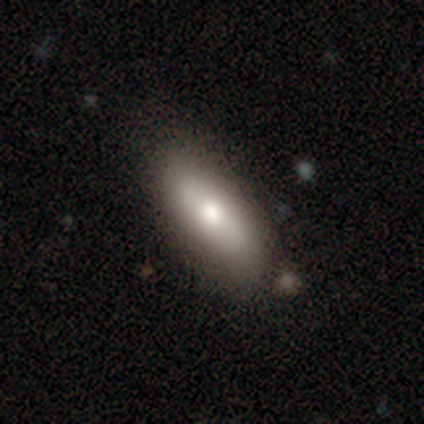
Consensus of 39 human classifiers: A smooth galaxy with no disk features (64%) that is in between round and cigar-shaped (72%). Merging: none (75%).